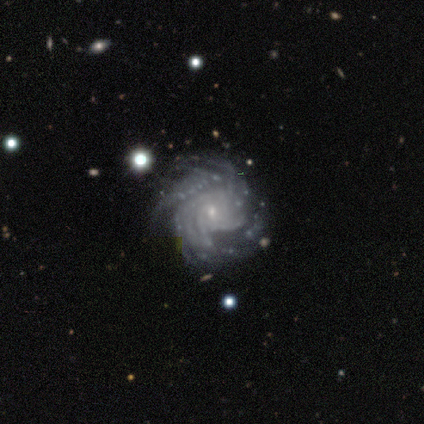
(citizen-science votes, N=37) This appears to be a featured or disk galaxy (95%) with no bar (71%), more than 4 (51%) tight (66%) spiral arms (100%) and a small central bulge (80%). Merging: none (67%).